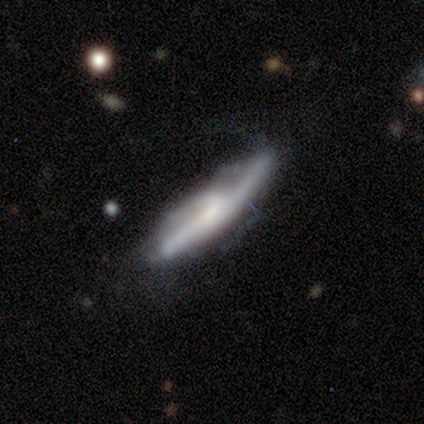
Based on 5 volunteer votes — smooth_or_featured: featured or disk (p=0.60) [alt: smooth p=0.40]
disk_edge_on: no (p=0.67) [alt: yes p=0.33]
bar: no (p=1.00)
has_spiral_arms: yes (p=0.50) [tied with: no p=0.50]
spiral_winding: tight (p=1.00)
spiral_arm_count: can't tell (p=1.00)
bulge_size: small (p=0.50) [tied with: none p=0.50]
merging: none (p=0.40) [tied with: minor disturbance p=0.40]